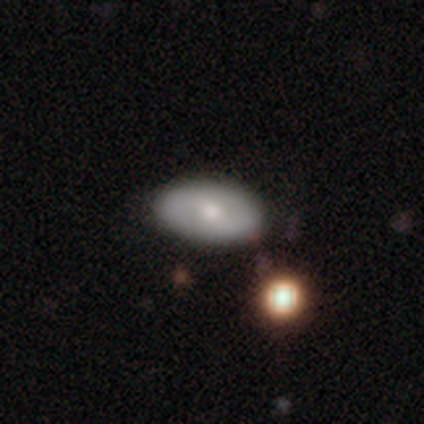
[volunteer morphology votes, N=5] smooth-or-featured: smooth: 60% | featured or disk: 40% | star or artifact: 0%
  how-rounded: in between: 100% | round: 0% | cigar-shaped: 0%
  merging: none: 60% | minor disturbance: 20% | major disturbance: 20% | merger: 0%